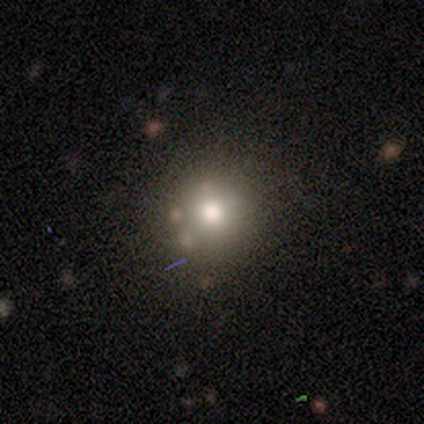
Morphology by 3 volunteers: Volunteers were most divided on "smooth or featured": smooth: 67%, star or artifact: 33%, featured or disk: 0%. More confident: how rounded — round (100%); merging — none (100%).